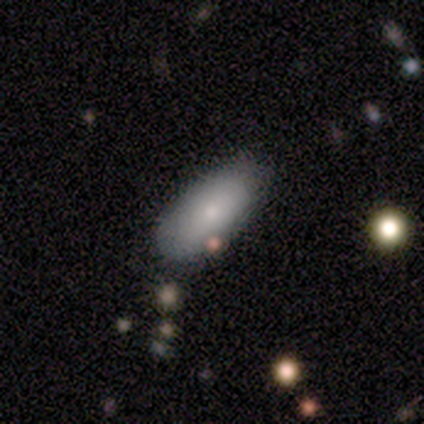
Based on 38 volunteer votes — Smooth or featured: smooth — 82% (featured or disk — 16%)
How rounded: in between — 97% (cigar-shaped — 3%)
Merging: none — 81% (minor disturbance — 8%)